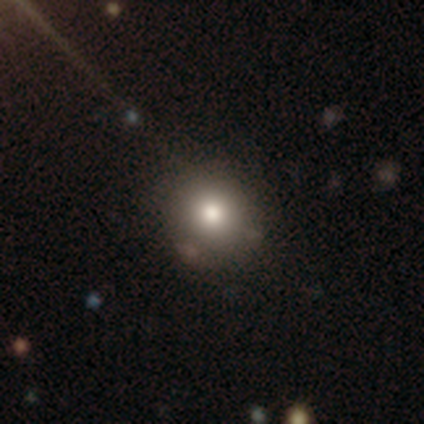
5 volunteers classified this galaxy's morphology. Overall: star or artifact (60%; smooth 40%).